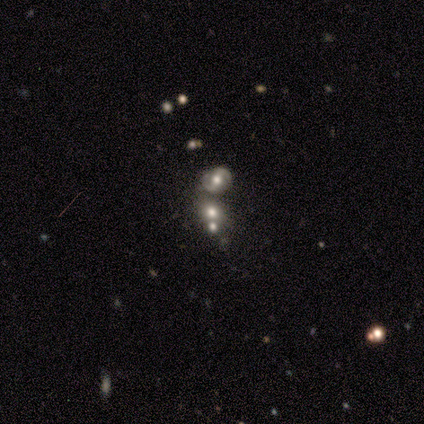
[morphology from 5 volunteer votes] A featured or disk galaxy (40%, tied with star or artifact) with a strong bar (50%, tied with no), tight (100%) spiral arms (50%, tied with no) and a moderate central bulge (50%, tied with small). Merging: none (33%, tied with minor disturbance and merger).